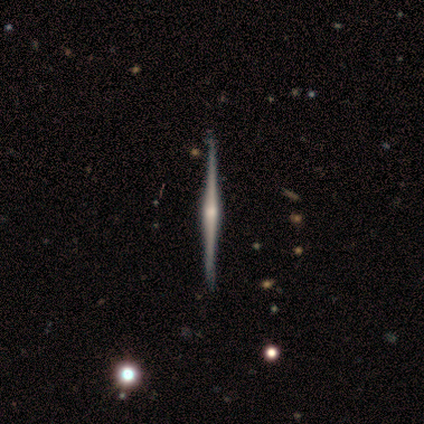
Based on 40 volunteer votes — A featured or disk galaxy (88%) viewed edge-on (100%) with a rounded central bulge (77%).

Vote fractions:
- Smooth or featured? featured or disk: 88% / smooth: 10% / star or artifact: 2%
- Edge-on disk? yes: 100% / no: 0%
- Edge-on bulge? rounded: 77% / none: 14% / boxy: 9%
- Merging? none: 56% / minor disturbance: 13% / merger: 3% / major disturbance: 0%